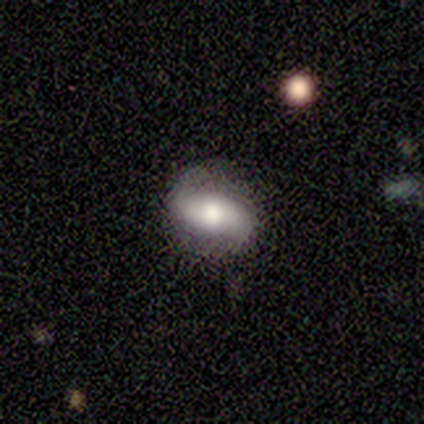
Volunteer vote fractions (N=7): smooth 86%, featured or disk 14%, star or artifact 0%. Down the decision tree: how rounded — in between (100%); merging — none (86%).